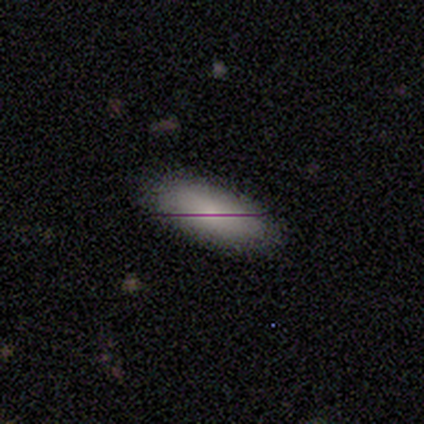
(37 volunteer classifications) Smooth or featured: smooth — 59% (featured or disk — 22%)
How rounded: in between — 73% (cigar-shaped — 23%)
Merging: none — 83% (minor disturbance — 13%)